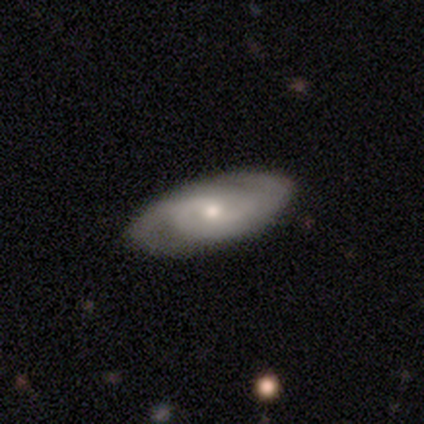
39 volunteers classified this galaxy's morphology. featured or disk 82%, smooth 15%, star or artifact 3%. Down the decision tree: edge-on disk — no (78%); bar — no (68%); spiral arms — yes (92%); spiral arm count — 2 (78%); spiral winding — tight (43%); bulge size — moderate (52%); merging — none (87%).